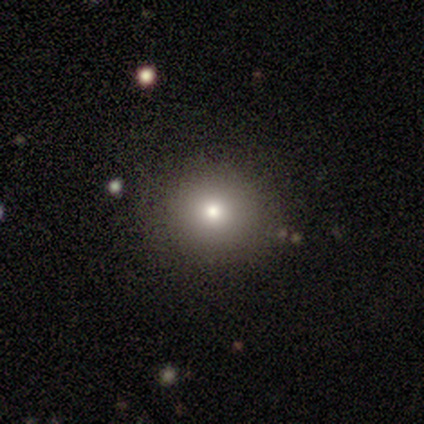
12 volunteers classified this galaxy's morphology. Volunteers were most divided on "smooth or featured": smooth: 75%, star or artifact: 17%, featured or disk: 8%. More confident: how rounded — round (100%); merging — none (90%).